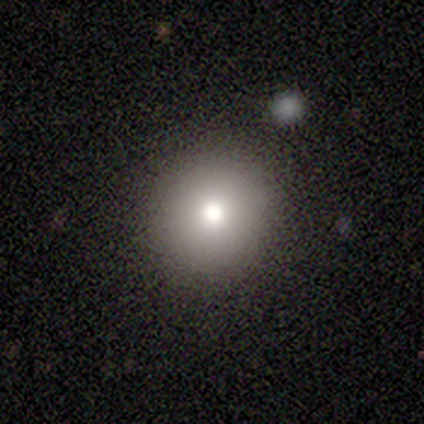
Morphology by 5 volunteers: Smooth or featured? 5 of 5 (100%) said smooth. How rounded? 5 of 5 (100%) said round. Merging? 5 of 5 (100%) said none.